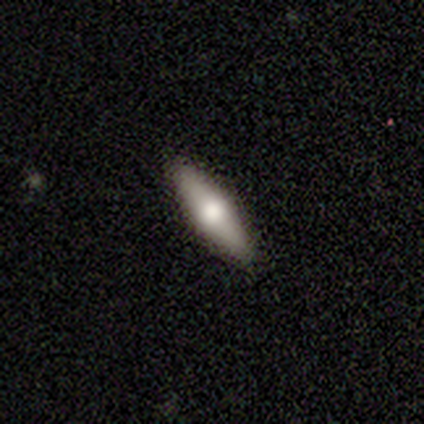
A featured or disk galaxy (53%) viewed edge-on (90%) with a rounded central bulge (94%).

Vote fractions:
- Smooth or featured? featured or disk: 53% / smooth: 42% / star or artifact: 5%
- Edge-on disk? yes: 90% / no: 10%
- Edge-on bulge? rounded: 94% / none: 6% / boxy: 0%
- Merging? none: 100% / minor disturbance: 0% / major disturbance: 0% / merger: 0%